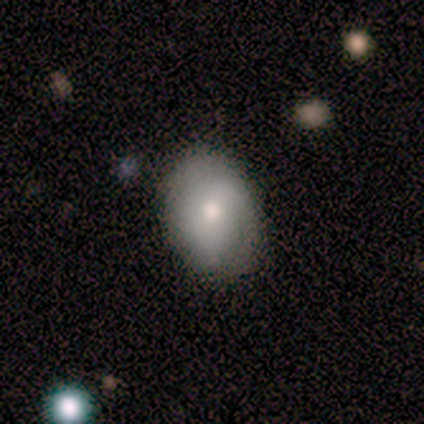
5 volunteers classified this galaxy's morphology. Q: Smooth or featured?
A: smooth (80%); runner-up: featured or disk (20%)
Q: How rounded?
A: round (50%); tied with: in between (50%)
Q: Merging?
A: none (80%); runner-up: minor disturbance (20%)